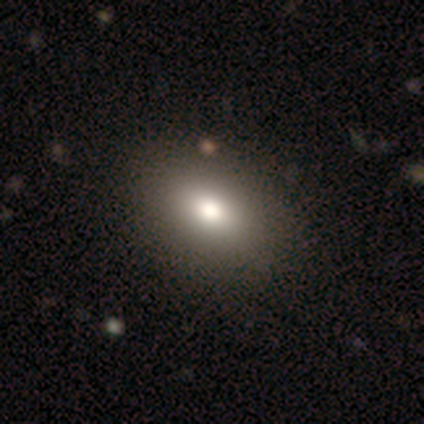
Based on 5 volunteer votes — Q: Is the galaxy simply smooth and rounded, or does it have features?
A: smooth — 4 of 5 (80%).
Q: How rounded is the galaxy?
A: in between — 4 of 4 (100%).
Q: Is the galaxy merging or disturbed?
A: none — 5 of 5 (100%).